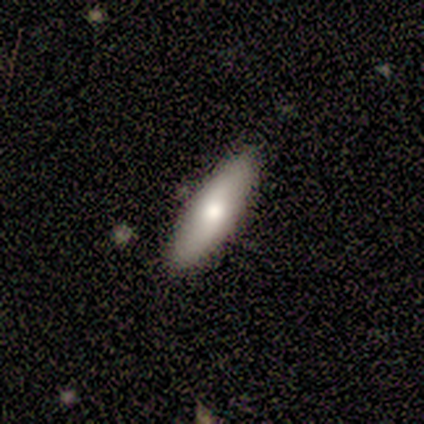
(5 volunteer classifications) Smooth or featured? 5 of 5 (100%) said smooth. How rounded? 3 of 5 (60%) said cigar-shaped. Merging? 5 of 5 (100%) said none.